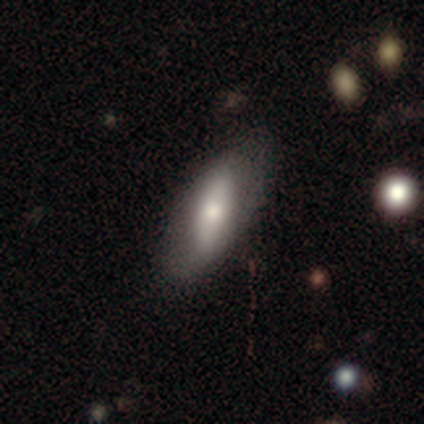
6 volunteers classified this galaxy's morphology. Smooth or featured? 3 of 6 (50%, tied with featured or disk) said smooth. How rounded? 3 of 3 (100%) said in between. Merging? 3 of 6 (50%) said minor disturbance.